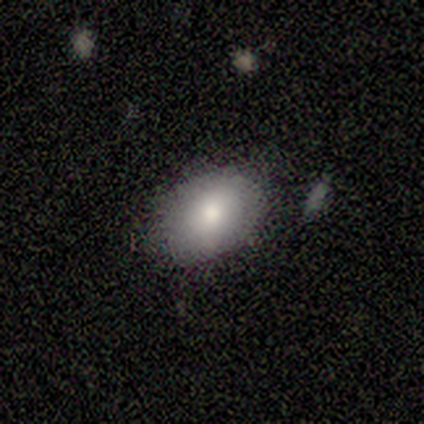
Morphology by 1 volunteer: smooth_or_featured: smooth (p=1.00)
how_rounded: in between (p=1.00)
merging: major disturbance (p=1.00)